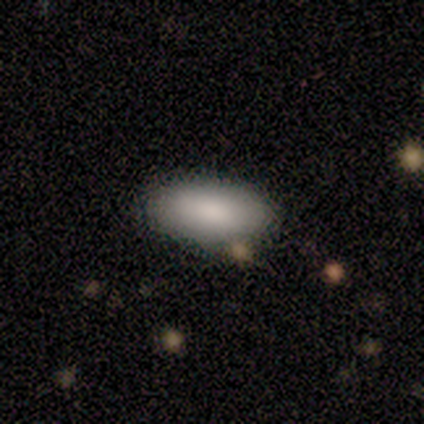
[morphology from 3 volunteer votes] A smooth galaxy with no disk features (100%) that is in between round and cigar-shaped (100%).

Vote fractions:
- Smooth or featured? smooth: 100% / featured or disk: 0% / star or artifact: 0%
- How rounded? in between: 100% / round: 0% / cigar-shaped: 0%
- Merging? none: 100% / minor disturbance: 0% / major disturbance: 0% / merger: 0%